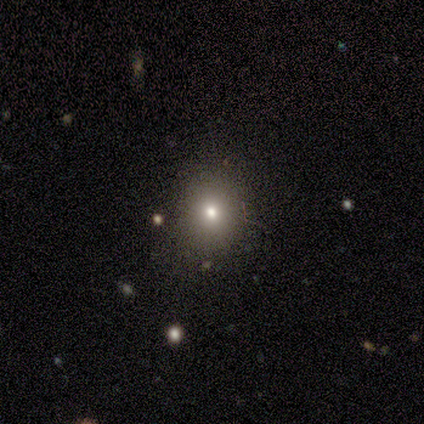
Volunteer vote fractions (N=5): Volunteers were most divided on "how rounded": round: 60%, in between: 40%, cigar-shaped: 0%. More confident: smooth or featured — smooth (100%); merging — none (80%).